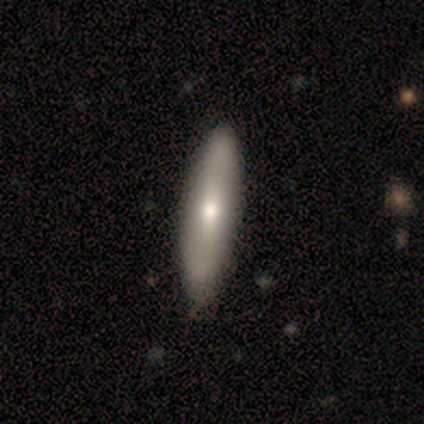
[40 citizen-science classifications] Smooth or featured?
  - smooth: 60% *
  - featured or disk: 38%
  - star or artifact: 2%
How rounded?
  - cigar-shaped: 75% *
  - in between: 25%
  - round: 0%
Merging?
  - none: 74% *
  - minor disturbance: 3%
  - major disturbance: 0%
  - merger: 0%